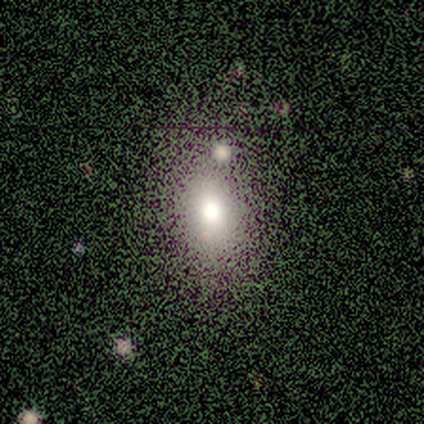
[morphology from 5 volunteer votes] Smooth or featured: smooth — 60% (star or artifact — 40%)
How rounded: in between — 67% (round — 33%)
Merging: none — 67% (merger — 33%)